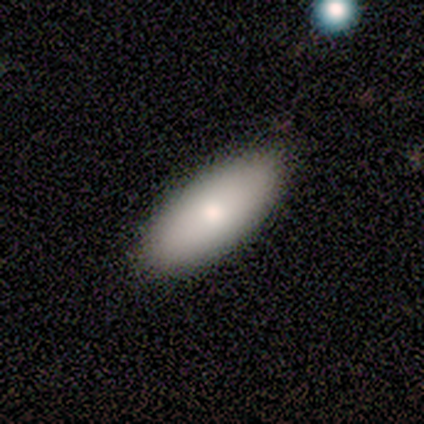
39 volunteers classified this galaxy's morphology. Q: Smooth or featured?
A: smooth (74%); runner-up: featured or disk (23%)
Q: How rounded?
A: in between (86%); runner-up: cigar-shaped (10%)
Q: Merging?
A: none (50%); runner-up: minor disturbance (3%)